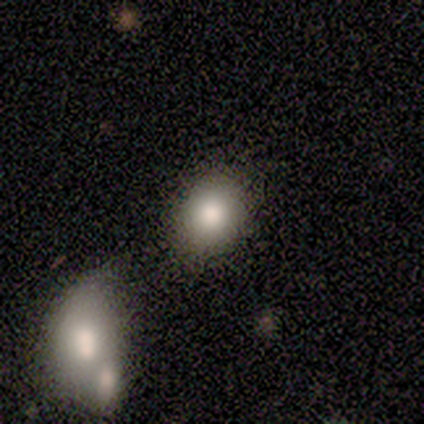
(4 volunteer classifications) A smooth galaxy with no disk features (100%) that is in between round and cigar-shaped (75%). Merging: none (100%).